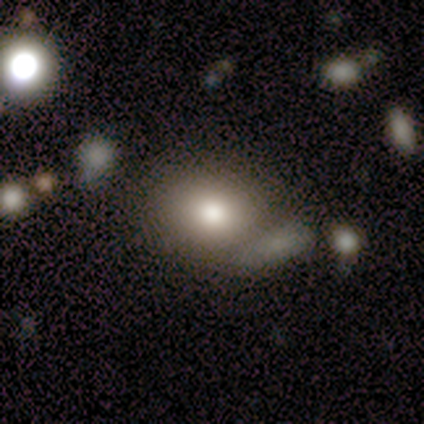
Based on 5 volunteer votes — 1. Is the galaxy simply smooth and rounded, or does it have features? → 60% smooth, 40% featured or disk, 0% star or artifact.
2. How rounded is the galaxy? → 67% round, 33% in between, 0% cigar-shaped.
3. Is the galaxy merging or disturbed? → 40% none (tied), 40% merger (tied), 20% major disturbance, 0% minor disturbance.